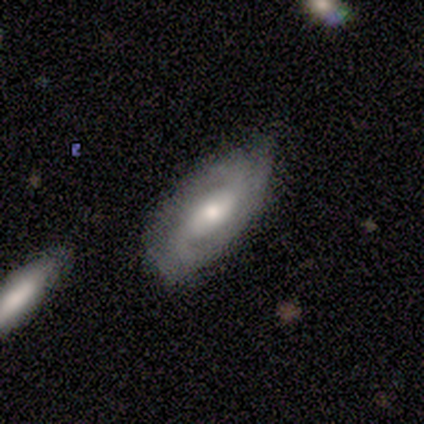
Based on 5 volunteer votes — Smooth or featured?
  - featured or disk: 80% *
  - star or artifact: 20%
  - smooth: 0%
Edge-on disk?
  - no: 75% *
  - yes: 25%
Bar?
  - no: 67% *
  - weak: 33%
  - strong: 0%
Spiral arms?
  - yes: 100% *
  - no: 0%
Spiral winding?
  - tight: 100% *
  - medium: 0%
  - loose: 0%
Spiral arm count?
  - 2: 67% *
  - can't tell: 33%
  - 1: 0%
  - 3: 0%
  - 4: 0%
  - more than 4: 0%
Bulge size?
  - moderate: 100% *
  - dominant: 0%
  - large: 0%
  - small: 0%
  - none: 0%
Merging?
  - none: 50% *
  - minor disturbance: 25%
  - major disturbance: 25%
  - merger: 0%